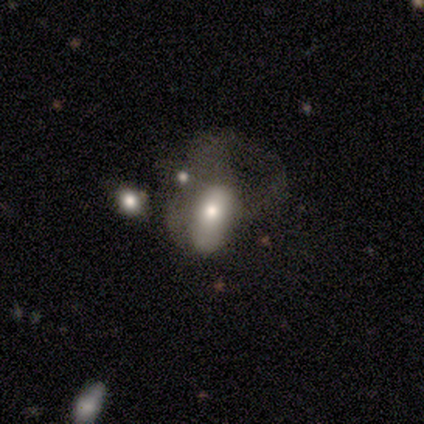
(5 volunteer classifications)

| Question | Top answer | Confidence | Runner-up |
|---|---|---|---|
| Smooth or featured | smooth | 60% | featured or disk (20%) |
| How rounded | in between | 67% | cigar-shaped (33%) |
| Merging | none | 50% | tied: major disturbance (50%) |